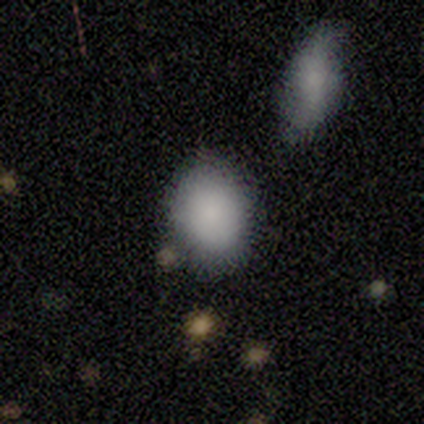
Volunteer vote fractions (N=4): Volunteers were most divided on "how rounded" (2-way tie): round: 50%, in between: 50%, cigar-shaped: 0%. More confident: smooth or featured — smooth (100%); merging — none (75%).